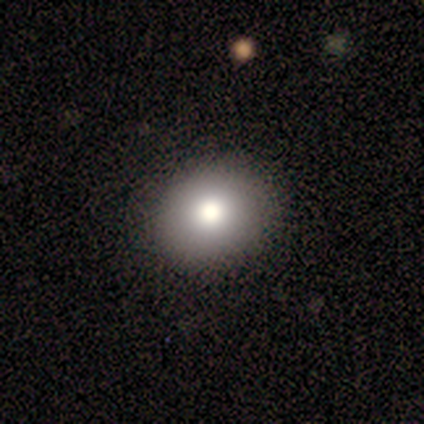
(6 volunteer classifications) smooth_or_featured: smooth (p=1.00)
how_rounded: round (p=0.83) [alt: in between p=0.17]
merging: none (p=0.83) [alt: minor disturbance p=0.17]